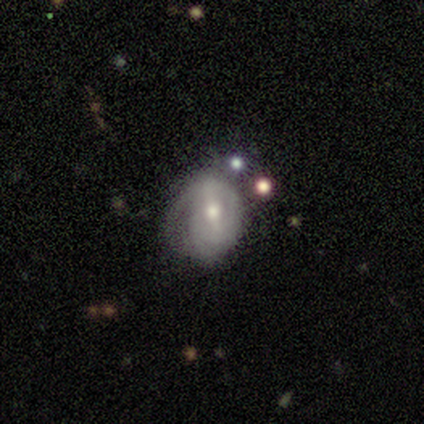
Smooth or featured: featured or disk — 72% (smooth — 25%)
Edge-on disk: no — 93% (yes — 7%)
Bar: strong — 52% (weak — 30%)
Spiral arms: yes — 70% (no — 30%)
Spiral winding: tight — 63% (medium — 26%)
Spiral arm count: can't tell — 47% (2 — 26%)
Bulge size: moderate — 52% (small — 48%)
Merging: minor disturbance — 49% (none — 33%)